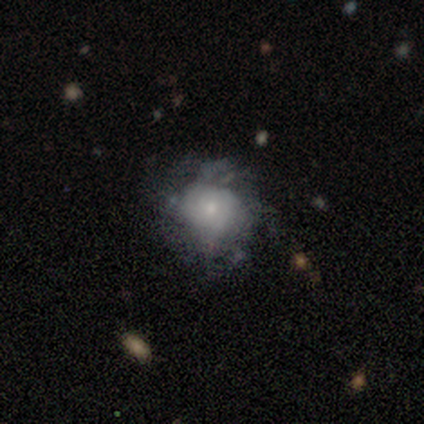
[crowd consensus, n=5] smooth-or-featured: featured or disk: 60% | smooth: 40% | star or artifact: 0%
  disk-edge-on: no: 100% | yes: 0%
    bar: no: 67% | weak: 33% | strong: 0%
    has-spiral-arms: yes: 100% | no: 0%
      spiral-winding: tight: 33% (tied) | medium: 33% (tied) | loose: 33% (tied)
      spiral-arm-count: can't tell: 67% | 2: 33% | 1: 0% | 3: 0% | 4: 0% | more than 4: 0%
    bulge-size: small: 67% | none: 33% | dominant: 0% | large: 0% | moderate: 0%
  merging: none: 40% (tied) | major disturbance: 40% (tied) | minor disturbance: 20% | merger: 0%